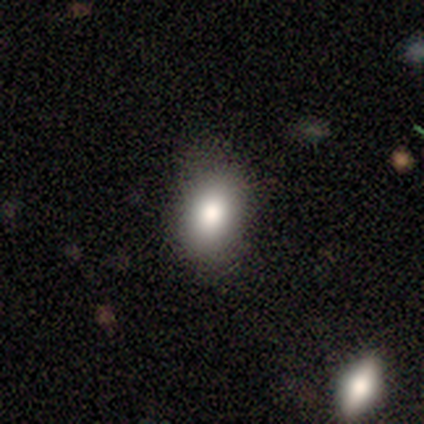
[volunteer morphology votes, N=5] This is clearly a smooth galaxy (80%). How rounded: likely in between (75%). Merging: clearly none (100%).